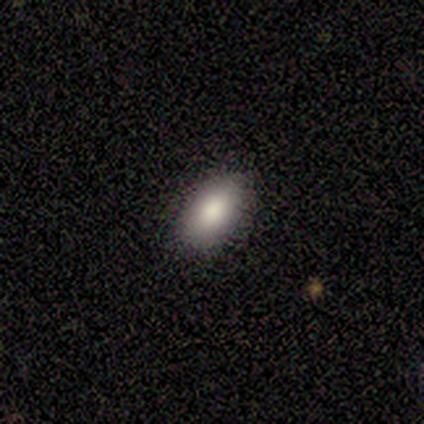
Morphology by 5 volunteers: Q: Smooth or featured?
A: smooth (100%)
Q: How rounded?
A: in between (80%); runner-up: cigar-shaped (20%)
Q: Merging?
A: none (100%)